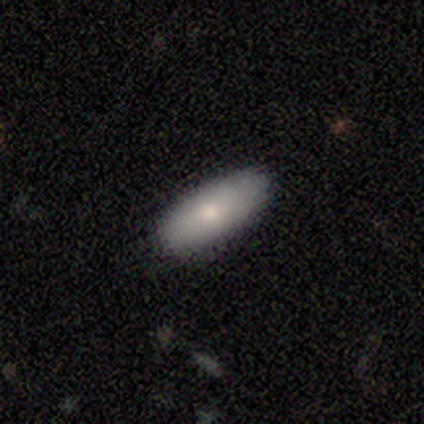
Q: Smooth or featured?
A: smooth (100%)
Q: How rounded?
A: in between (60%); runner-up: cigar-shaped (40%)
Q: Merging?
A: none (100%)